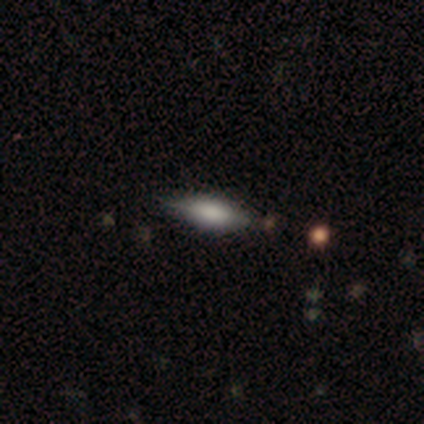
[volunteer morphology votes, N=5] Volunteers were most divided on "how rounded": cigar-shaped: 67%, in between: 33%, round: 0%. More confident: merging — minor disturbance (75%); smooth or featured — smooth (60%).